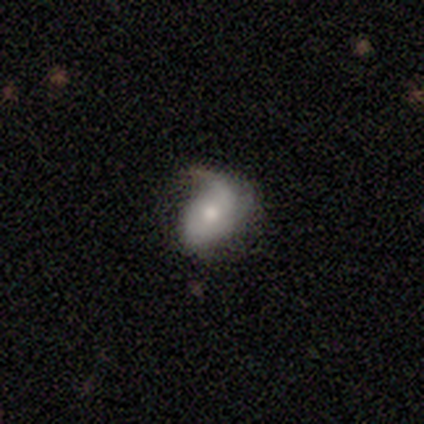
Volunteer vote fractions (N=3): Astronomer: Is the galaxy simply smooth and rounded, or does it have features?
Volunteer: featured or disk — 67%.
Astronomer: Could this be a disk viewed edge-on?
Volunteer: no — 100%.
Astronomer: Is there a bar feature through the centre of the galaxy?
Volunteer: no — 100%.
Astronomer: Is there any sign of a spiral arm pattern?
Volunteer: yes — 100%.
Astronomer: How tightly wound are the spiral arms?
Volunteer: loose — 100%.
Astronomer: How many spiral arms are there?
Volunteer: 1 — 50%, tied with 2 at 50%.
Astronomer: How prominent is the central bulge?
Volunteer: moderate — 50%, tied with small at 50%.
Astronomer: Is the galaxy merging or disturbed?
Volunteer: none — 67%.